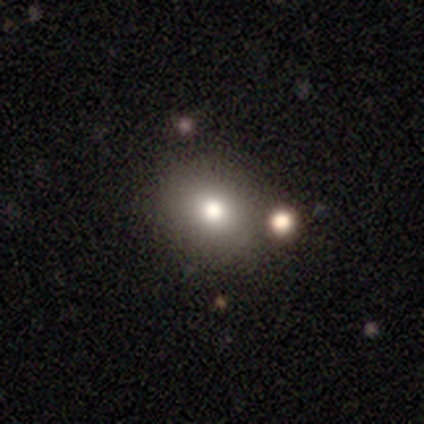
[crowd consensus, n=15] Smooth or featured?
  - smooth: 80% *
  - star or artifact: 13%
  - featured or disk: 7%
How rounded?
  - round: 50% * (tied)
  - in between: 50% * (tied)
  - cigar-shaped: 0%
Merging?
  - none: 85% *
  - minor disturbance: 15%
  - major disturbance: 0%
  - merger: 0%